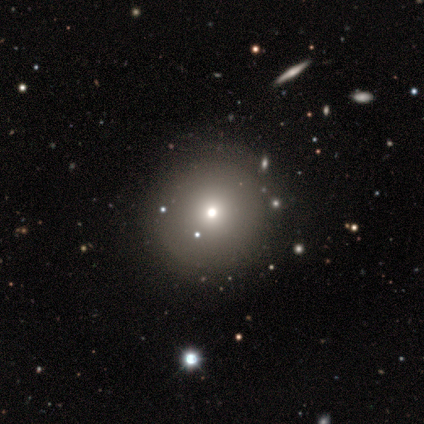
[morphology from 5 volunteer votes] smooth_or_featured: smooth (p=0.80) [alt: star or artifact p=0.20]
how_rounded: round (p=1.00)
merging: none (p=0.75) [alt: minor disturbance p=0.25]